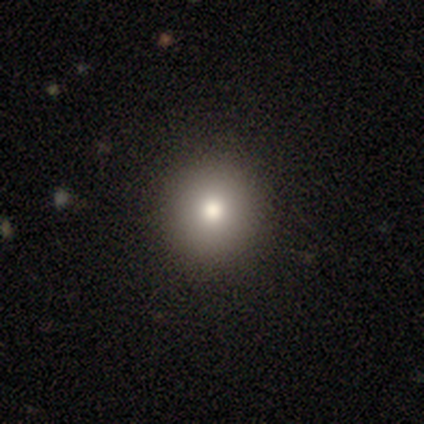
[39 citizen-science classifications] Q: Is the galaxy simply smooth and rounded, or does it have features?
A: smooth — 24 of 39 (62%).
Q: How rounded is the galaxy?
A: round — 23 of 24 (96%).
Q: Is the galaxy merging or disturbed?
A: none — 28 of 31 (90%).